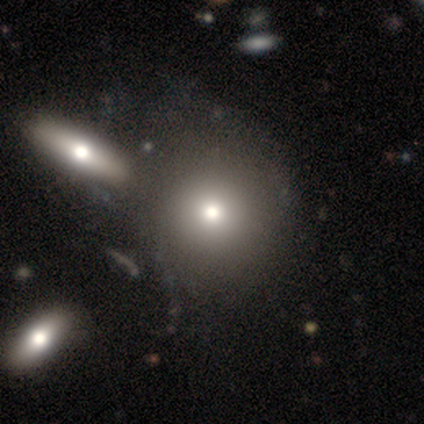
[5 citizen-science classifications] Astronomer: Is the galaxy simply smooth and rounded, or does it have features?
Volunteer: smooth — 80%.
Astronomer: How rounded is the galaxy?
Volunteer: round — 75%.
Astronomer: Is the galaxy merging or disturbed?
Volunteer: none — 60% (runner-up: major disturbance, 40%).